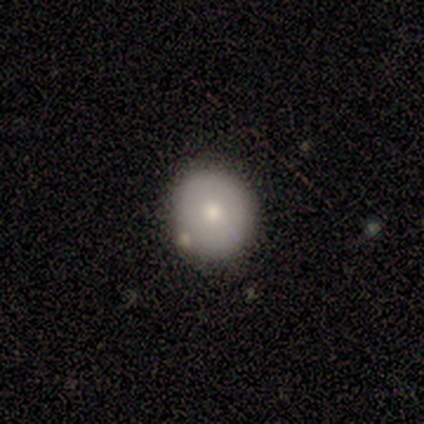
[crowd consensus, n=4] A smooth galaxy with no disk features (75%) that is round (100%). Merging: none (100%).